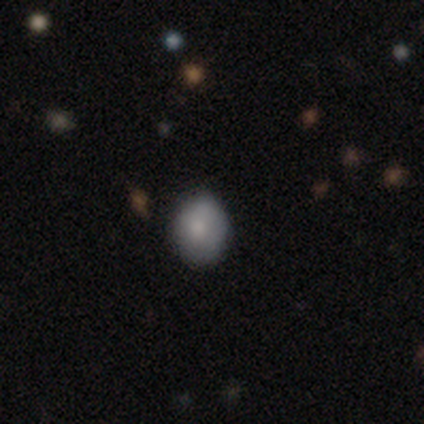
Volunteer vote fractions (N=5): smooth-or-featured: smooth: 60% | featured or disk: 40% | star or artifact: 0%
  how-rounded: in between: 67% | round: 33% | cigar-shaped: 0%
  merging: none: 100% | minor disturbance: 0% | major disturbance: 0% | merger: 0%